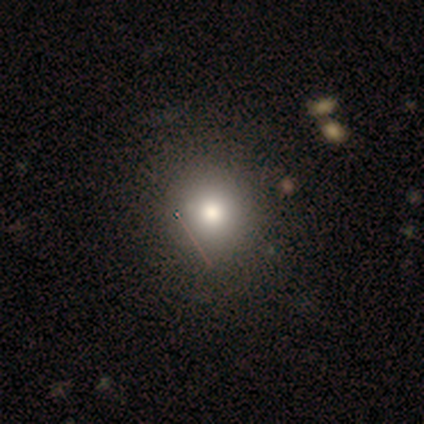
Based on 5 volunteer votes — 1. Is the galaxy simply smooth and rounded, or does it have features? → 100% smooth, 0% featured or disk, 0% star or artifact.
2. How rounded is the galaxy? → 100% round, 0% in between, 0% cigar-shaped.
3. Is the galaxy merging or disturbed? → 100% none, 0% minor disturbance, 0% major disturbance, 0% merger.